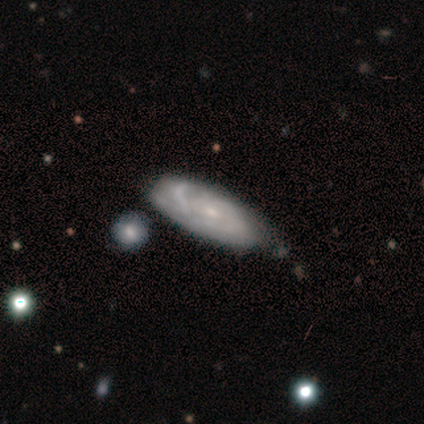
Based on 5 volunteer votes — Smooth or featured: featured or disk — 60% (smooth — 20%)
Edge-on disk: no — 67% (yes — 33%)
Bar: no — 100%
Spiral arms: yes — 100%
Spiral winding: tight — 100%
Spiral arm count: 2 — 50% (tied with can't tell — 50%)
Bulge size: small — 100%
Merging: none — 50% (minor disturbance — 25%)